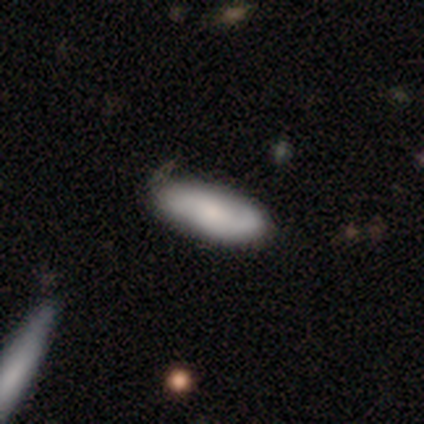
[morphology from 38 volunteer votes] A smooth galaxy with no disk features (58%) that is in between round and cigar-shaped (82%).

Vote fractions:
- Smooth or featured? smooth: 58% / featured or disk: 39% / star or artifact: 3%
- How rounded? in between: 82% / cigar-shaped: 18% / round: 0%
- Merging? none: 59% / minor disturbance: 11% / major disturbance: 5% / merger: 5%